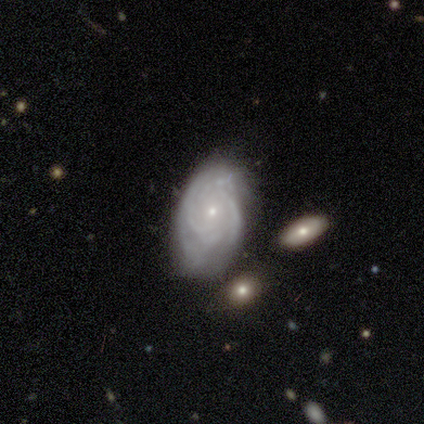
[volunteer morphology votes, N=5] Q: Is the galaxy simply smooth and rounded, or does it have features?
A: featured or disk — 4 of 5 (80%).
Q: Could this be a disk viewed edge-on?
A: no — 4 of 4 (100%).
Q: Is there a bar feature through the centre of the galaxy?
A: weak — 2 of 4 (50%, tied with no).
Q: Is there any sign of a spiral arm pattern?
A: yes — 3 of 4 (75%).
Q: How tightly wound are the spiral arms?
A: tight — 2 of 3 (67%).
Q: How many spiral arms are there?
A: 3 — 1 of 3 (33%, tied with 4 and can't tell).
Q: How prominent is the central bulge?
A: small — 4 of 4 (100%).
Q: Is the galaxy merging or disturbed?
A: none — 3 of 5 (60%).